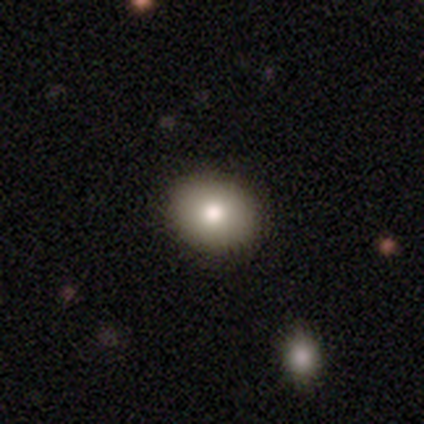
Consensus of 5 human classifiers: This is likely a smooth galaxy (60%). How rounded: likely in between (67%). Merging: clearly none (100%).